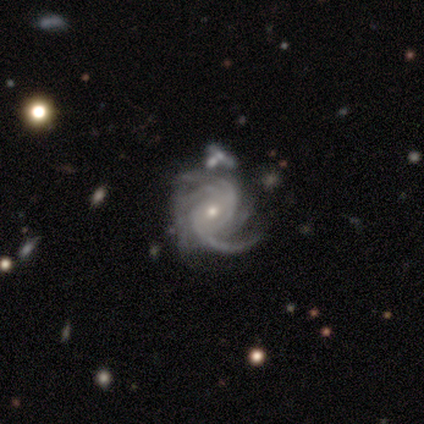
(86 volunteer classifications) featured or disk 93%, smooth 5%, star or artifact 2%. Down the decision tree: edge-on disk — no (100%); bar — no (60%); spiral arms — yes (100%); spiral arm count — 3 (26%); spiral winding — tight (59%); bulge size — small (72%); merging — none (62%).